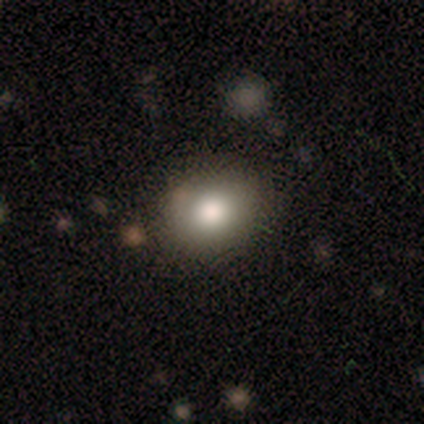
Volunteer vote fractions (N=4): smooth 75%, star or artifact 25%, featured or disk 0%. Down the decision tree: how rounded — in between (67%); merging — none (100%).